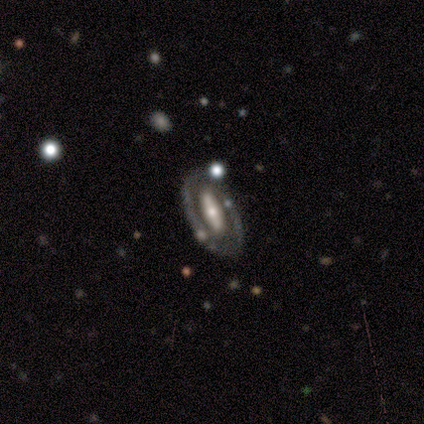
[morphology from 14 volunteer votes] smooth-or-featured: featured or disk: 86% | smooth: 14% | star or artifact: 0%
  disk-edge-on: no: 92% | yes: 8%
    bar: strong: 55% | no: 27% | weak: 18%
    has-spiral-arms: no: 73% | yes: 27%
    bulge-size: small: 73% | none: 18% | moderate: 9% | dominant: 0% | large: 0%
  merging: none: 64% | minor disturbance: 14% | major disturbance: 14% | merger: 7%